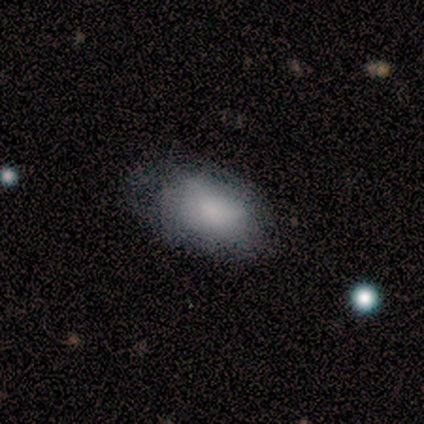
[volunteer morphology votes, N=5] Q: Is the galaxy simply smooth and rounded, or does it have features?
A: smooth — 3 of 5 (60%).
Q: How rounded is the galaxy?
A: in between — 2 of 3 (67%).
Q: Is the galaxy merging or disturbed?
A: none — 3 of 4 (75%).